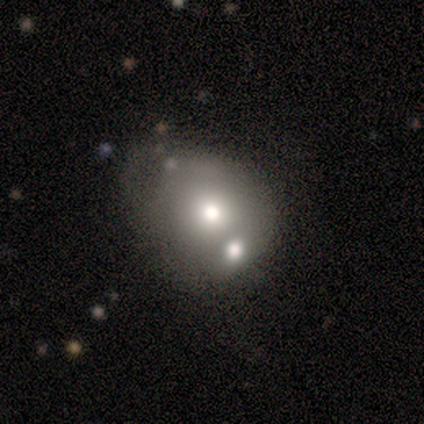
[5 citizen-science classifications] Overall: smooth (60%; featured or disk 20%). How rounded: in between (100%). Merging: merger (75%).